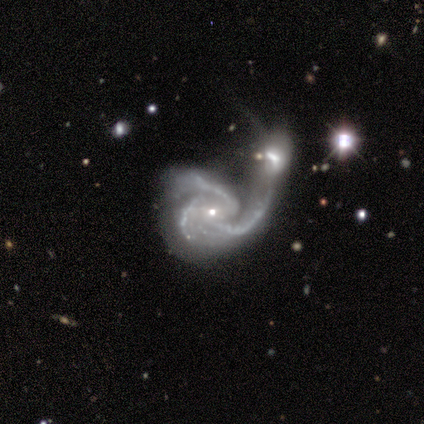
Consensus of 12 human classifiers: smooth_or_featured: featured or disk (p=0.83) [alt: star or artifact p=0.17]
disk_edge_on: no (p=1.00)
bar: no (p=0.70) [alt: weak p=0.30]
has_spiral_arms: yes (p=1.00)
spiral_winding: tight (p=0.50) [tied with: medium p=0.50]
spiral_arm_count: 3 (p=0.90) [alt: 2 p=0.10]
bulge_size: small (p=1.00)
merging: merger (p=0.50) [alt: none p=0.20]